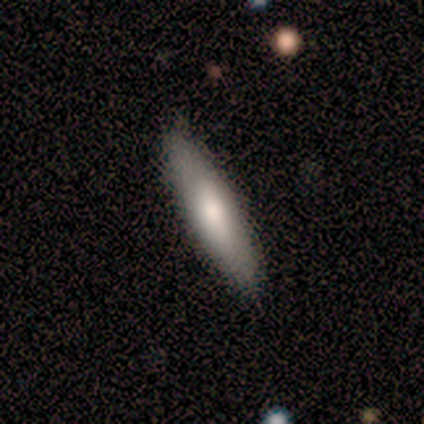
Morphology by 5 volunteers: This appears to be a smooth galaxy with no disk features (80%) that is in between round and cigar-shaped (75%). Merging: none (100%).